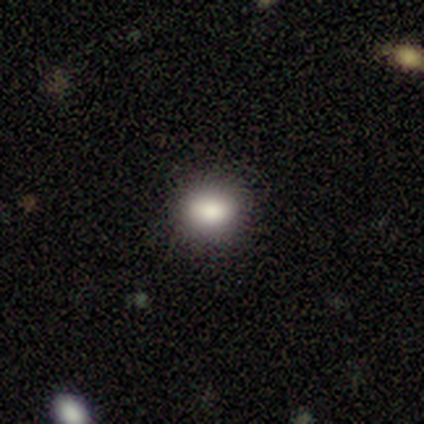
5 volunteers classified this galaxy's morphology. This appears to be a smooth galaxy with no disk features (60%) that is in between round and cigar-shaped (67%). Merging: none (100%).